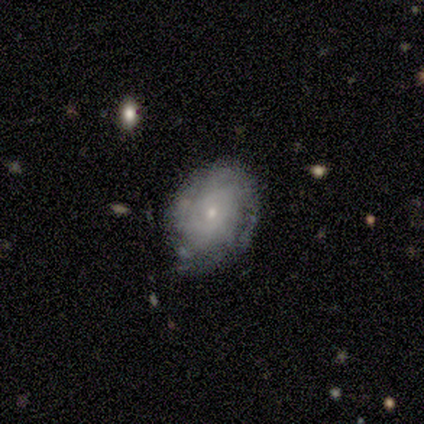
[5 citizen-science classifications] A featured or disk galaxy (80%) with no bar (75%), tight (100%) spiral arms (75%) and a moderate central bulge (50%, tied with small). Merging: none (60%).